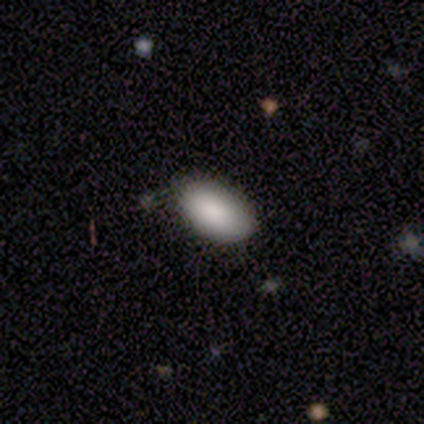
This is clearly a smooth galaxy (90%). How rounded: clearly in between (97%). Merging: likely none (74%).